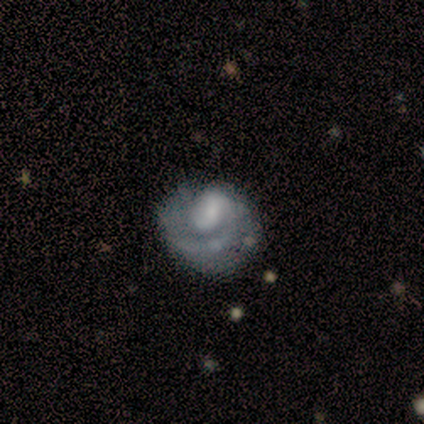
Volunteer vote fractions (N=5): Volunteers were most divided on "bar" (2-way tie): strong: 50%, no: 50%, weak: 0%. More confident: edge-on disk — no (100%); smooth or featured — featured or disk (80%); spiral arms — yes (75%); spiral winding — medium (67%); spiral arm count — 1 (67%); merging — major disturbance (60%); bulge size — large (50%).